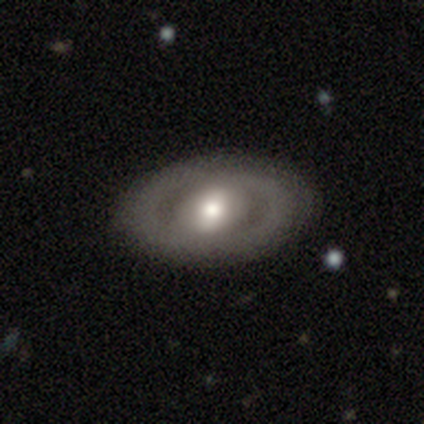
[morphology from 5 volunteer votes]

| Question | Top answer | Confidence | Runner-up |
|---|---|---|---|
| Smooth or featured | featured or disk | 60% | smooth (40%) |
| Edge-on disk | no | 100% | — |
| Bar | no | 67% | weak (33%) |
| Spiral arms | no | 100% | — |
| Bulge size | moderate | 67% | small (33%) |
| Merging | none | 60% | minor disturbance (40%) |